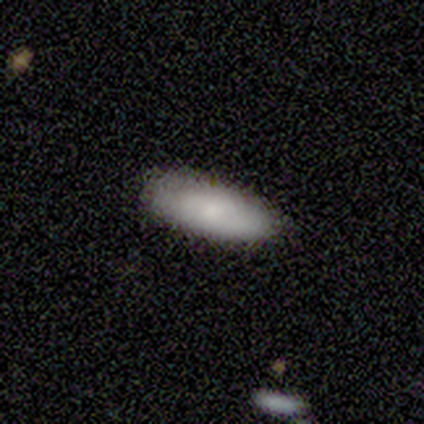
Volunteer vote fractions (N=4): Smooth or featured? 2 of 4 (50%, tied with featured or disk) said smooth. How rounded? 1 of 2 (50%, tied with cigar-shaped) said in between. Merging? 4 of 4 (100%) said none.